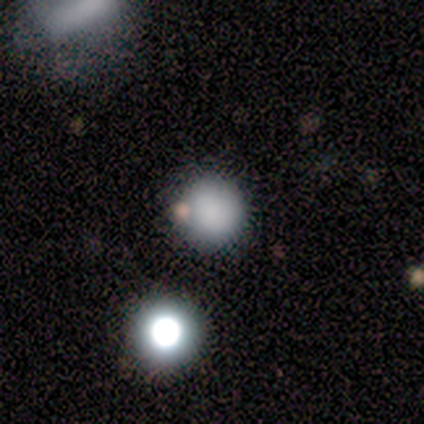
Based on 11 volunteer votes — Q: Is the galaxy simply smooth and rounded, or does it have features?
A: smooth — 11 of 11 (100%).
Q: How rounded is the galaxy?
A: round — 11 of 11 (100%).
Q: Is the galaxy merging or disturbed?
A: none — 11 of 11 (100%).